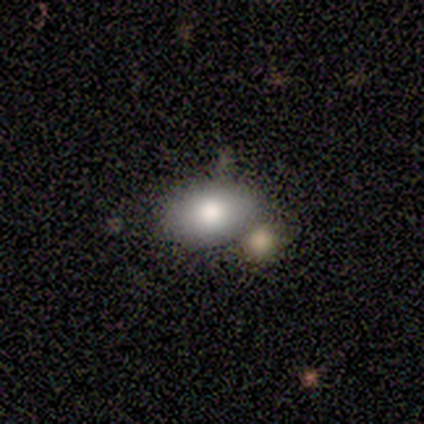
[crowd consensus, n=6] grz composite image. It shows a smooth galaxy with no disk features (100%) that is in between round and cigar-shaped (83%). Merging: none (83%).